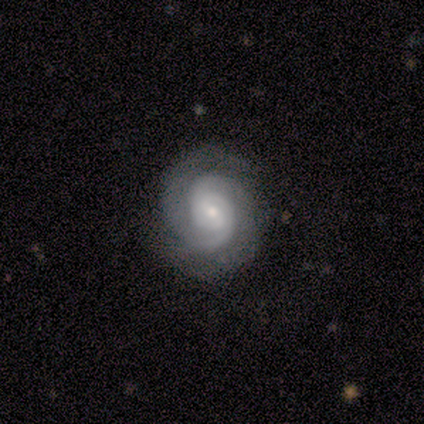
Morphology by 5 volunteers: Volunteers were most divided on "bar" (2-way tie): weak: 50%, no: 50%, strong: 0%. More confident: edge-on disk — no (100%); spiral arms — yes (100%); spiral winding — tight (100%); spiral arm count — 2 (100%); smooth or featured — featured or disk (80%); bulge size — moderate (75%); merging — none (75%).